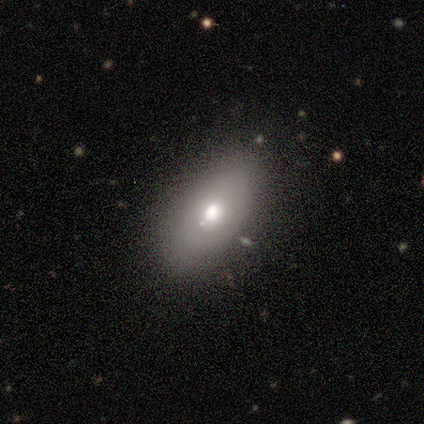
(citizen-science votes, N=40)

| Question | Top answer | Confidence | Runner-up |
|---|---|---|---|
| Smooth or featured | smooth | 62% | featured or disk (28%) |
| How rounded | in between | 96% | round (4%) |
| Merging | none | 75% | minor disturbance (22%) |